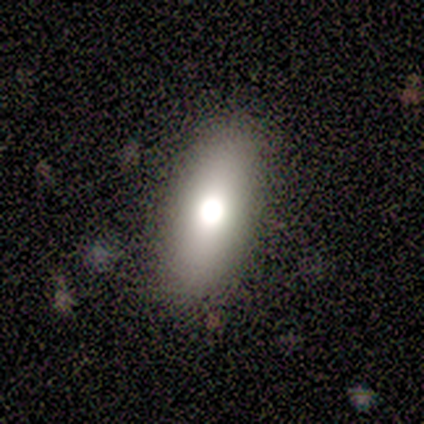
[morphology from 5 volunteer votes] Smooth or featured: smooth — 100%
How rounded: in between — 80% (cigar-shaped — 20%)
Merging: none — 100%